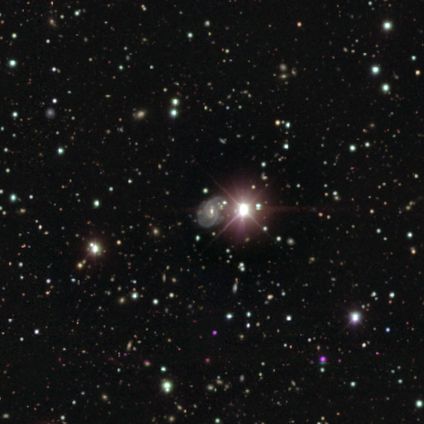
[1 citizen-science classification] smooth_or_featured: star or artifact (p=1.00)